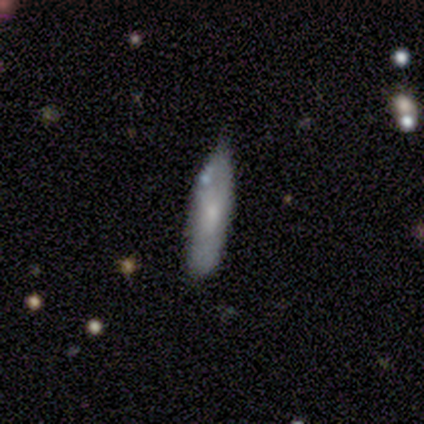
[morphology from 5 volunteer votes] Smooth or featured?
  - smooth: 80% *
  - featured or disk: 20%
  - star or artifact: 0%
How rounded?
  - in between: 75% *
  - cigar-shaped: 25%
  - round: 0%
Merging?
  - minor disturbance: 60% *
  - none: 40%
  - major disturbance: 0%
  - merger: 0%